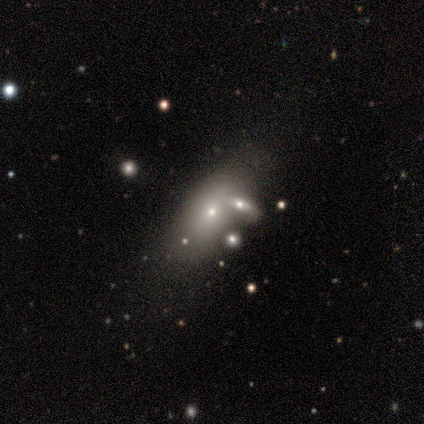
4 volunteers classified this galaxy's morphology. type=star or artifact (75%).